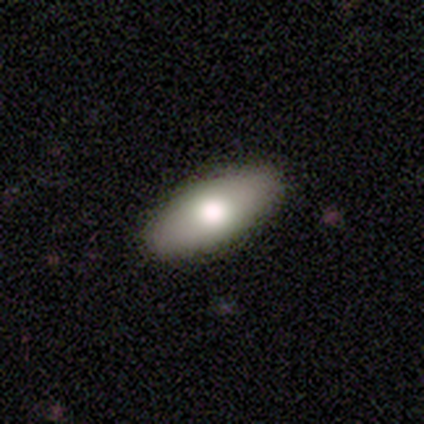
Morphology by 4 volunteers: type=smooth (100%); roundness=in between (100%); merging=none (100%).